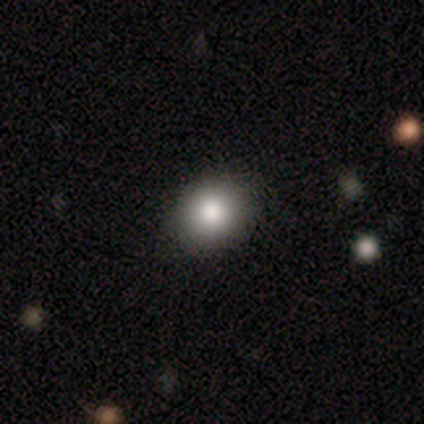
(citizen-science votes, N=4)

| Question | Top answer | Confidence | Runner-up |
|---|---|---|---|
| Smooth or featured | smooth | 75% | star or artifact (25%) |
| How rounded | in between | 67% | round (33%) |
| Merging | none | 67% | minor disturbance (33%) |